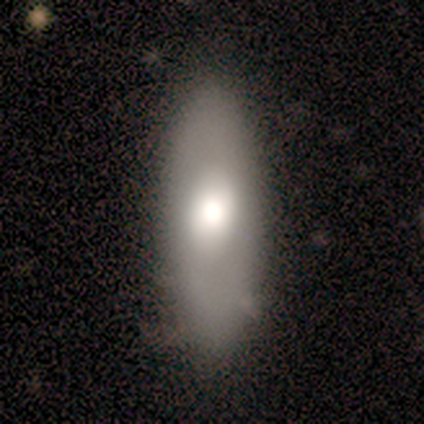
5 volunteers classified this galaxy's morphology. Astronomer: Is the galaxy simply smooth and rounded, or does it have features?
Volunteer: smooth — 100%.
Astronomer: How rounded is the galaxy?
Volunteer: in between — 60% (runner-up: cigar-shaped, 40%).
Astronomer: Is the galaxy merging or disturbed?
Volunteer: minor disturbance — 60% (runner-up: none, 40%).